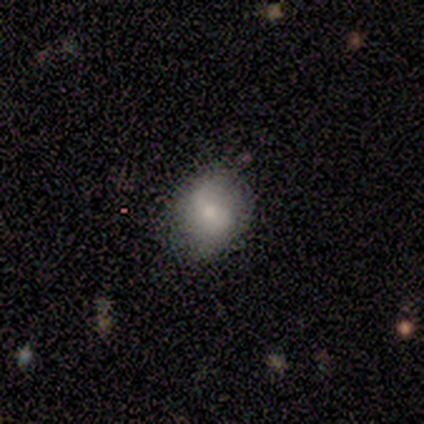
Smooth or featured?
  - smooth: 100% *
  - featured or disk: 0%
  - star or artifact: 0%
How rounded?
  - round: 100% *
  - in between: 0%
  - cigar-shaped: 0%
Merging?
  - none: 50% * (tied)
  - minor disturbance: 50% * (tied)
  - major disturbance: 0%
  - merger: 0%